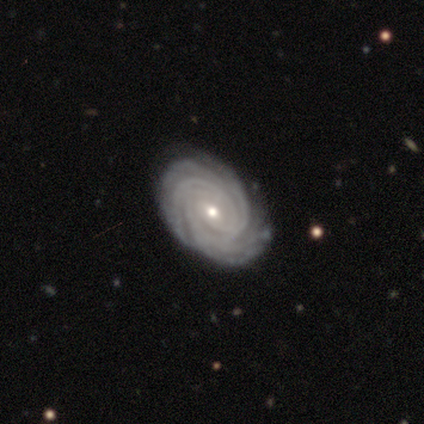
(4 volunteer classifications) Smooth or featured?
  - featured or disk: 75% *
  - star or artifact: 25%
  - smooth: 0%
Edge-on disk?
  - no: 100% *
  - yes: 0%
Bar?
  - weak: 100% *
  - strong: 0%
  - no: 0%
Spiral arms?
  - yes: 100% *
  - no: 0%
Spiral winding?
  - tight: 100% *
  - medium: 0%
  - loose: 0%
Spiral arm count?
  - more than 4: 100% *
  - 1: 0%
  - 2: 0%
  - 3: 0%
  - 4: 0%
  - can't tell: 0%
Bulge size?
  - moderate: 67% *
  - large: 33%
  - dominant: 0%
  - small: 0%
  - none: 0%
Merging?
  - none: 33% * (tied)
  - minor disturbance: 33% * (tied)
  - major disturbance: 33% * (tied)
  - merger: 0%